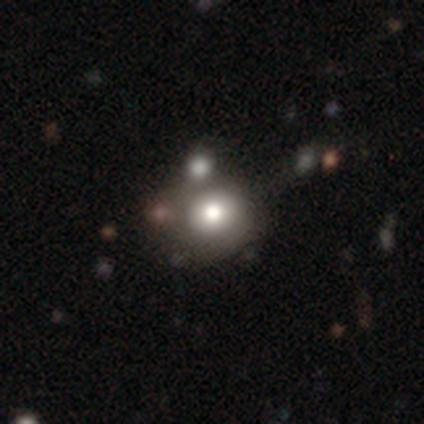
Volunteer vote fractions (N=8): Smooth or featured?
  - smooth: 75% *
  - star or artifact: 25%
  - featured or disk: 0%
How rounded?
  - round: 83% *
  - in between: 17%
  - cigar-shaped: 0%
Merging?
  - none: 50% *
  - minor disturbance: 33%
  - merger: 17%
  - major disturbance: 0%